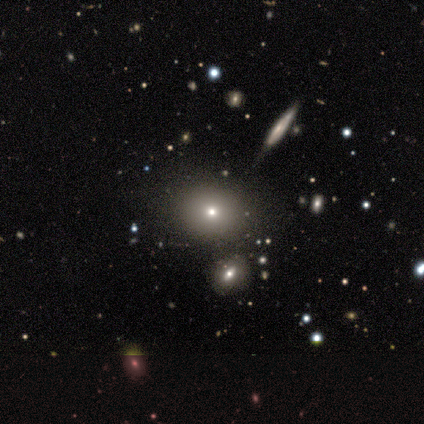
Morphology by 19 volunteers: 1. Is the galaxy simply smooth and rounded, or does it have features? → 84% smooth, 16% star or artifact, 0% featured or disk.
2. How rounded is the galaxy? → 69% round, 31% in between, 0% cigar-shaped.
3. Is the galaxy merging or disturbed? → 25% merger, 19% none, 6% minor disturbance, 0% major disturbance.